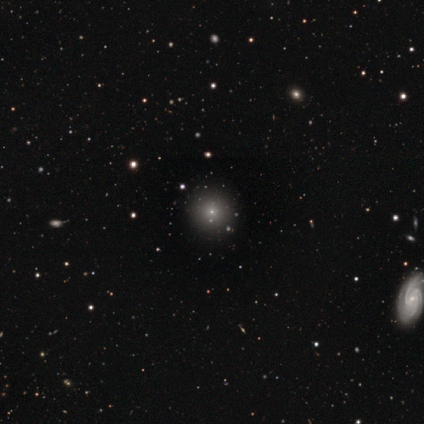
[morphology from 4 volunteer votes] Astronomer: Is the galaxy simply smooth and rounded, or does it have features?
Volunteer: smooth — 50%.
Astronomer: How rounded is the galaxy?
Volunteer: round — 100%.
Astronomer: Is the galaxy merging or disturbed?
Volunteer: none — 100%.